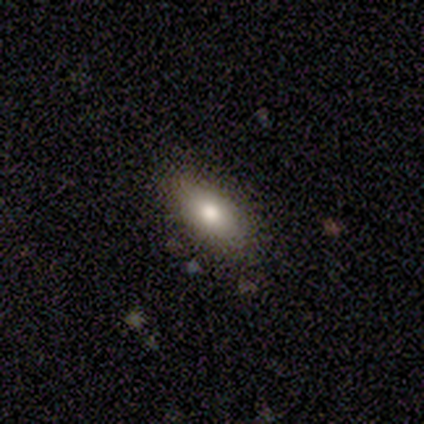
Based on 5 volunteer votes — smooth 100%, featured or disk 0%, star or artifact 0%. Down the decision tree: how rounded — in between (100%); merging — none (100%).